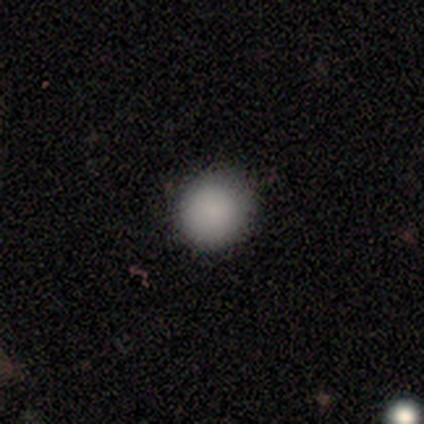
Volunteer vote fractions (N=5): This is clearly a smooth galaxy (80%). How rounded: clearly round (100%). Merging: clearly none (100%).